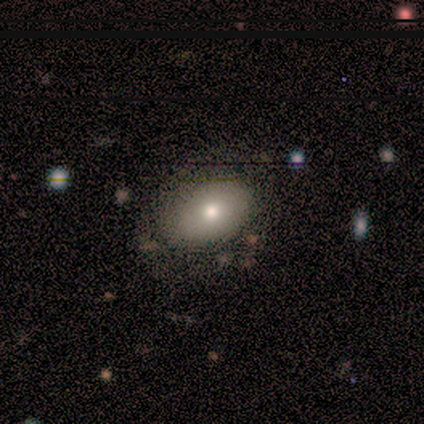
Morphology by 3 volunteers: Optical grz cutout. It shows a smooth galaxy with no disk features (67%) that is in between round and cigar-shaped (100%). Merging: none (67%).